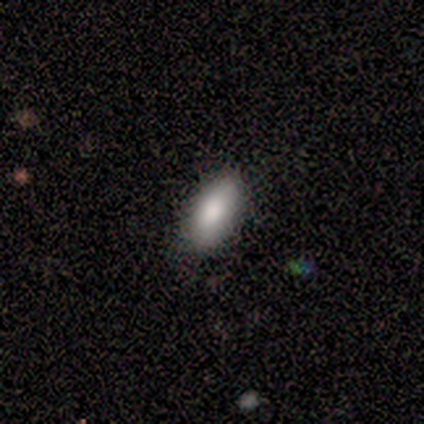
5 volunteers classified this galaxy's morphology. smooth-or-featured: smooth: 60% | featured or disk: 40% | star or artifact: 0%
  how-rounded: in between: 100% | round: 0% | cigar-shaped: 0%
  merging: none: 100% | minor disturbance: 0% | major disturbance: 0% | merger: 0%